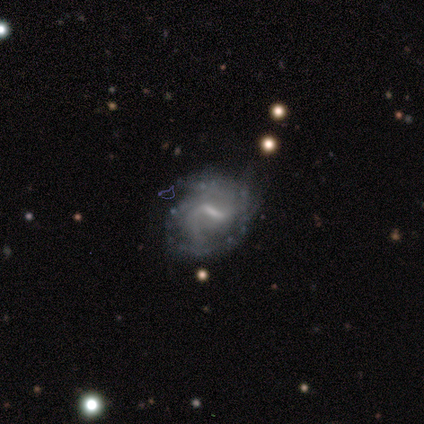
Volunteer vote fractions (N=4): Smooth or featured? 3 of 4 (75%) said featured or disk. Edge-on disk? 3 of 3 (100%) said no. Bar? 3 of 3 (100%) said strong. Spiral arms? 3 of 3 (100%) said yes. Spiral winding? 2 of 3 (67%) said medium. Spiral arm count? 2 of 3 (67%) said 2. Bulge size? 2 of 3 (67%) said moderate. Merging? 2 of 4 (50%) said none.